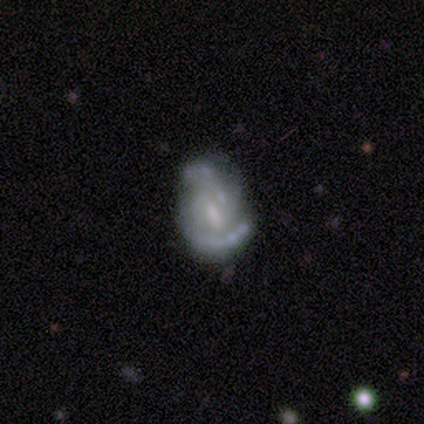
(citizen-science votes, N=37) Smooth or featured? featured or disk (86%)
Edge-on disk? no (100%)
Bar? weak (56%)
Spiral arms? yes (78%)
Spiral winding? tight (40%, tied with medium)
Spiral arm count? 2 (64%)
Bulge size? moderate (38%)
Merging? none (46%)